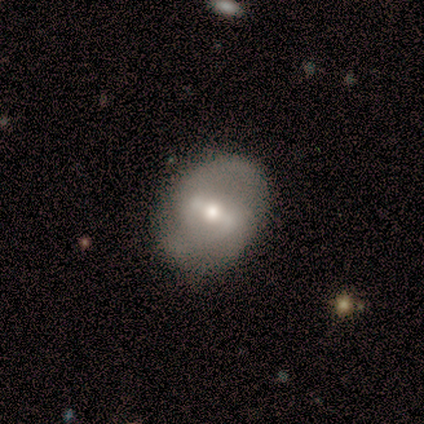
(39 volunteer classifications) A featured or disk galaxy (87%) with a strong bar (56%), 2 (81%) medium (67%) spiral arms (62%) and a moderate central bulge (82%). Merging: none (59%).